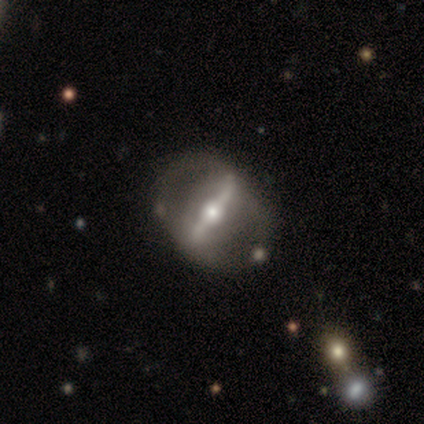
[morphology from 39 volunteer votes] Smooth or featured? featured or disk (85%)
Edge-on disk? no (76%)
Bar? strong (92%)
Spiral arms? yes (52%)
Spiral winding? medium (38%, tied with loose)
Spiral arm count? 2 (62%)
Bulge size? moderate (68%)
Merging? none (41%)